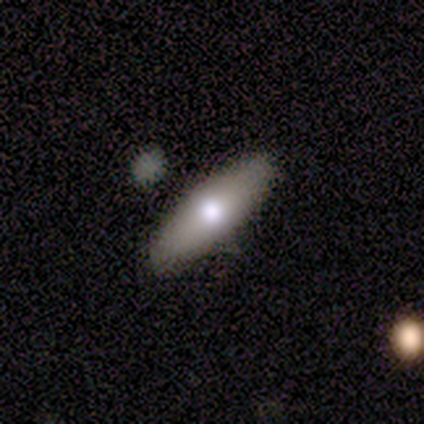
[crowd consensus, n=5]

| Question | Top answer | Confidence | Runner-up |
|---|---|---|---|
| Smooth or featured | featured or disk | 60% | smooth (40%) |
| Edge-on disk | yes | 100% | — |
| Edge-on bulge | rounded | 67% | none (33%) |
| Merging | none | 60% | minor disturbance (40%) |